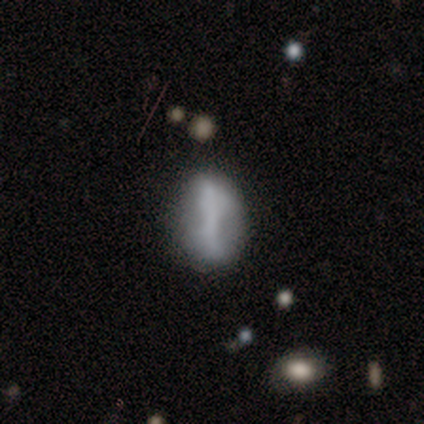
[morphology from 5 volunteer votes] A smooth galaxy with no disk features (60%) that is in between round and cigar-shaped (67%).

Vote fractions:
- Smooth or featured? smooth: 60% / featured or disk: 40% / star or artifact: 0%
- How rounded? in between: 67% / round: 33% / cigar-shaped: 0%
- Merging? none: 60% / merger: 40% / minor disturbance: 0% / major disturbance: 0%